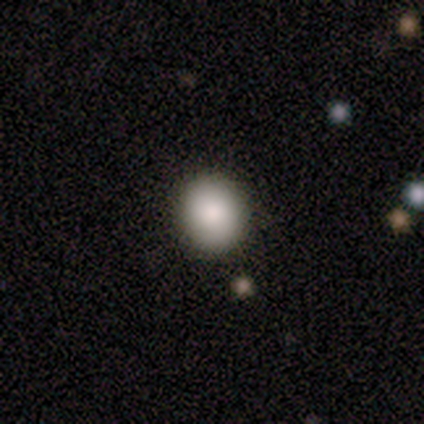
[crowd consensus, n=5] Morphology: type=smooth (100%); roundness=round (80%); merging=none (100%).